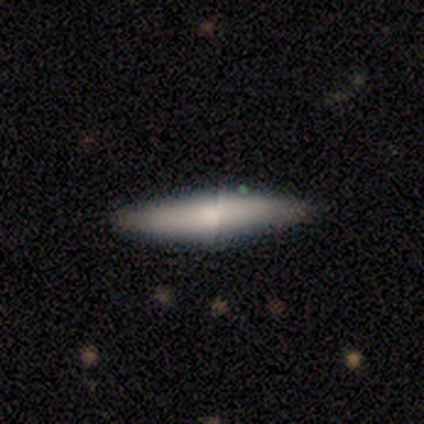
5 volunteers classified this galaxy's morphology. smooth 100%, featured or disk 0%, star or artifact 0%. Down the decision tree: how rounded — cigar-shaped (100%); merging — none (100%).